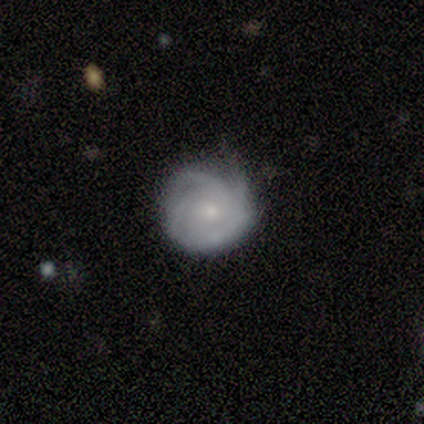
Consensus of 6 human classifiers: This appears to be a featured or disk galaxy (83%) with a weak bar (40%, tied with no), 4 (50%) tight (75%) spiral arms (80%) and a small central bulge (100%). Merging: minor disturbance (50%).